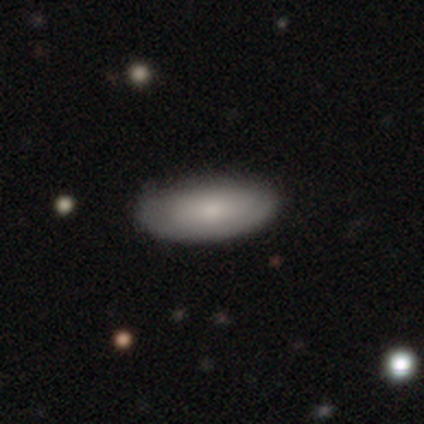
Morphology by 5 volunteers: Overall: smooth (60%; featured or disk 40%). How rounded: in between (67%; cigar-shaped 33%). Merging: none (60%; minor disturbance 40%).